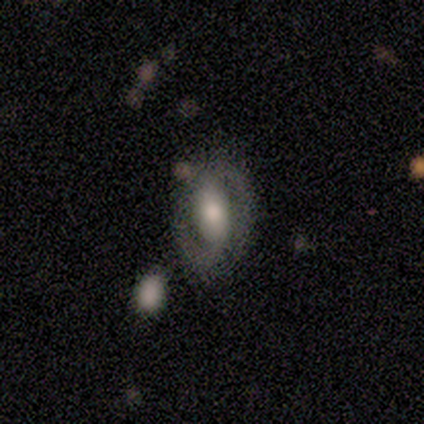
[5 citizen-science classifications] featured or disk 80%, smooth 20%, star or artifact 0%. Down the decision tree: edge-on disk — no (100%); bar — weak (50%, tied with no); spiral arms — yes (100%); spiral arm count — 2 (75%); spiral winding — medium (100%); bulge size — moderate (75%); merging — none (80%).